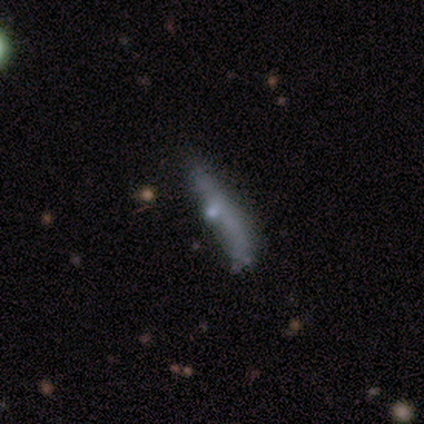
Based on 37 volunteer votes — Smooth or featured: smooth — 49% (featured or disk — 46%)
How rounded: cigar-shaped — 83% (in between — 17%)
Merging: none — 43% (minor disturbance — 29%)